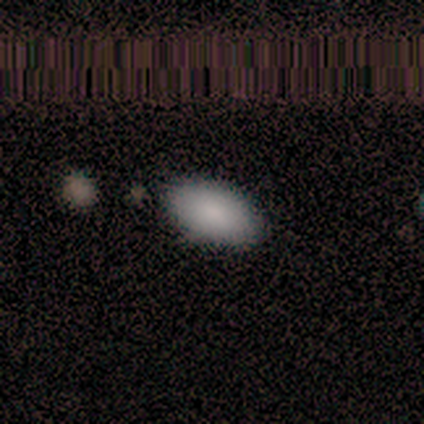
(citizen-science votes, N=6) A smooth galaxy with no disk features (83%) that is in between round and cigar-shaped (100%).

Vote fractions:
- Smooth or featured? smooth: 83% / star or artifact: 17% / featured or disk: 0%
- How rounded? in between: 100% / round: 0% / cigar-shaped: 0%
- Merging? none: 100% / minor disturbance: 0% / major disturbance: 0% / merger: 0%